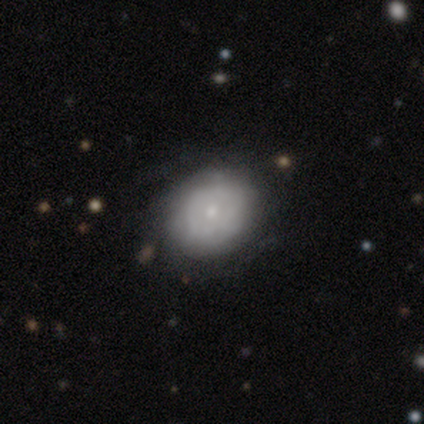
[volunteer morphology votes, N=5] smooth-or-featured: smooth: 80% | featured or disk: 20% | star or artifact: 0%
  how-rounded: round: 100% | in between: 0% | cigar-shaped: 0%
  merging: none: 60% | minor disturbance: 20% | major disturbance: 20% | merger: 0%